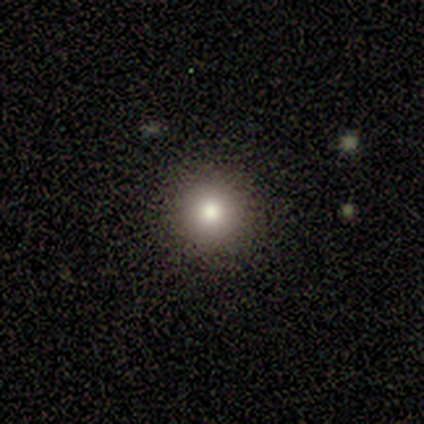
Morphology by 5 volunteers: smooth_or_featured: smooth (p=1.00)
how_rounded: round (p=1.00)
merging: none (p=1.00)